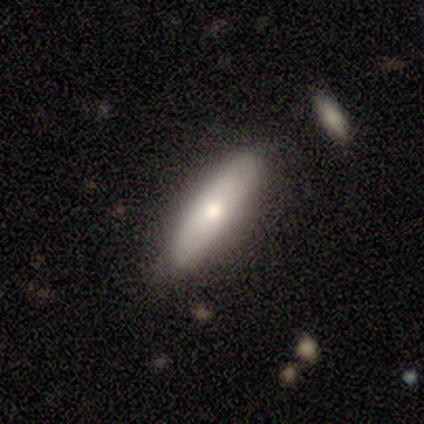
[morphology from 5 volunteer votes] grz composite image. It shows a smooth galaxy with no disk features (60%) that is cigar-shaped (100%). Merging: none (80%).